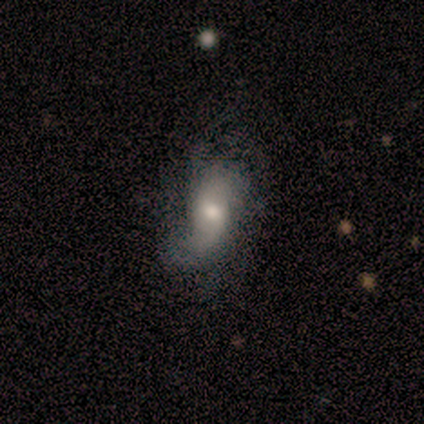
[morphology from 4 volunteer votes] Q: Smooth or featured?
A: featured or disk (75%); runner-up: star or artifact (25%)
Q: Edge-on disk?
A: no (100%)
Q: Bar?
A: no (67%); runner-up: weak (33%)
Q: Spiral arms?
A: yes (100%)
Q: Spiral winding?
A: loose (67%); runner-up: medium (33%)
Q: Spiral arm count?
A: 1 (33%); tied with: 2 (33%); 3 (33%)
Q: Bulge size?
A: moderate (100%)
Q: Merging?
A: minor disturbance (67%); runner-up: none (33%)